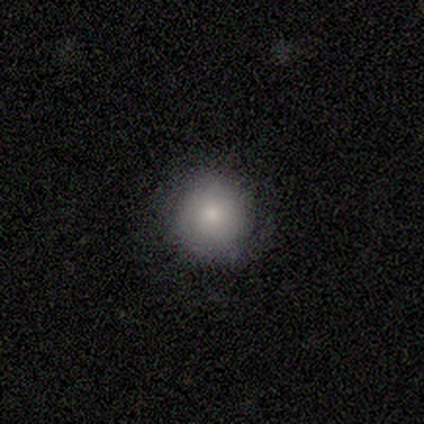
This is clearly a smooth galaxy (100%). How rounded: clearly round (100%). Merging: clearly none (100%).